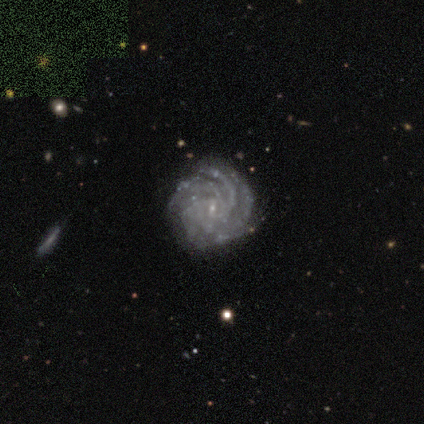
Morphology: type=featured or disk (80%); edge-on=no (100%); bar=no (75%); spiral arms=yes (100%); winding=tight (75%); arm count=4 (75%); bulge=small (100%); merging=none (100%).